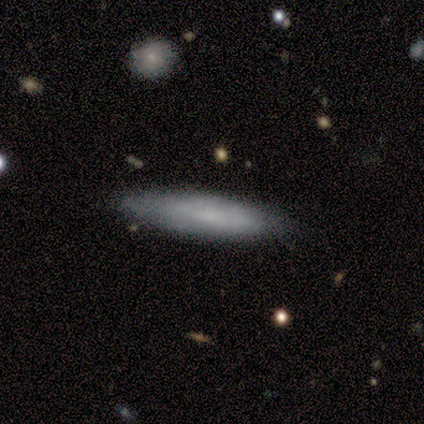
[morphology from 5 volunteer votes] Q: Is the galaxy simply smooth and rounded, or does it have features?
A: smooth — 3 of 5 (60%).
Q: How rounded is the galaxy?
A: cigar-shaped — 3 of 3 (100%).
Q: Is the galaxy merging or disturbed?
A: none — 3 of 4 (75%).